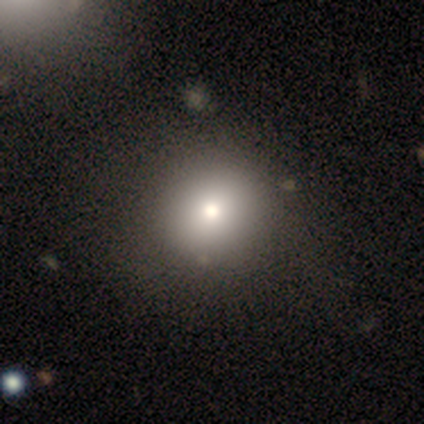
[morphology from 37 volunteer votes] smooth 81%, star or artifact 16%, featured or disk 3%. Down the decision tree: how rounded — round (90%); merging — none (48%).